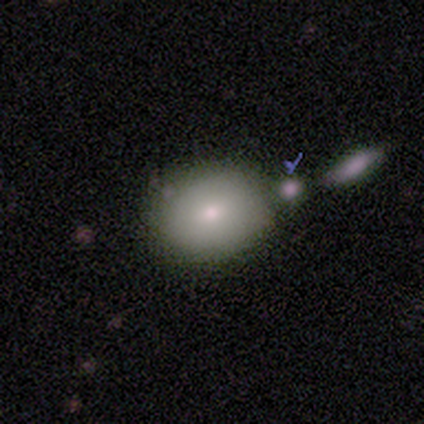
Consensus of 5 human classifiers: Smooth or featured: smooth — 100%
How rounded: in between — 60% (round — 40%)
Merging: none — 40% (tied with merger — 40%)